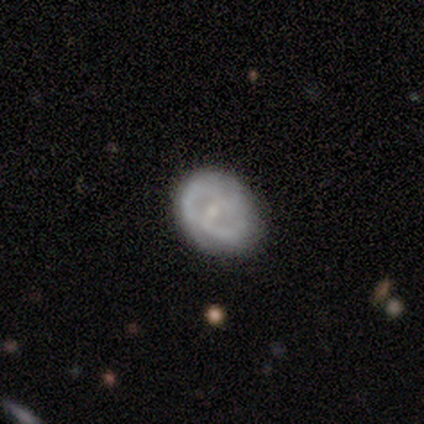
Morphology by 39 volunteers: Overall: featured or disk (74%). Edge-on disk: no (97%). Bar: no (50%; weak 39%). Spiral arms: yes (75%). Spiral arm count: 2 (67%). Spiral winding: tight (38%; medium 33%). Bulge size: small (75%). Merging: none (73%).